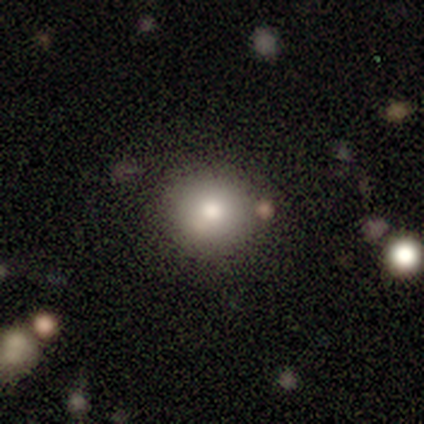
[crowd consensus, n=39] Smooth or featured? 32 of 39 (82%) said smooth. How rounded? 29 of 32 (91%) said round. Merging? 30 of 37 (81%) said none.